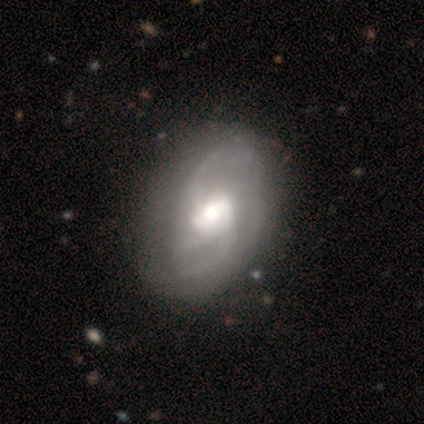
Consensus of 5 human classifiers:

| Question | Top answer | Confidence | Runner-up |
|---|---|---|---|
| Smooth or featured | featured or disk | 100% | — |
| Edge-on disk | no | 100% | — |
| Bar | weak | 80% | no (20%) |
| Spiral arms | yes | 100% | — |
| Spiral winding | tight | 60% | medium (20%) |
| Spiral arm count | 2 | 40% | tied: 3 (40%) |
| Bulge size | moderate | 40% | large (20%) |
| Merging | none | 80% | merger (20%) |